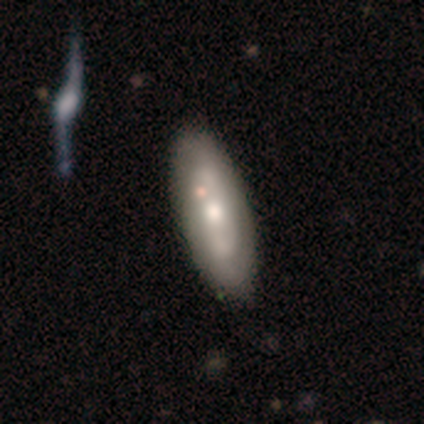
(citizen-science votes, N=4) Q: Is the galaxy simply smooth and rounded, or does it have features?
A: smooth — 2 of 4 (50%, tied with featured or disk).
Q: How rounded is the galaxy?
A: in between — 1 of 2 (50%, tied with cigar-shaped).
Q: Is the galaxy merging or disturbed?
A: none — 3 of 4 (75%).